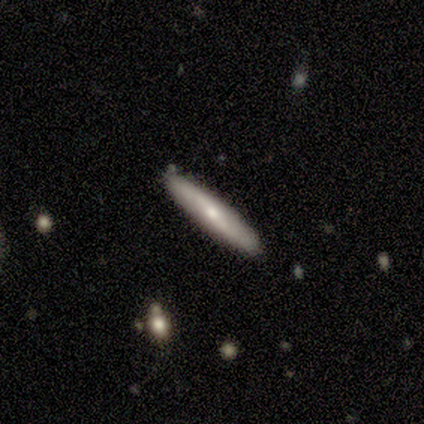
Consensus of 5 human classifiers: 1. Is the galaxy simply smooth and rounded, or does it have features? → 60% smooth, 40% featured or disk, 0% star or artifact.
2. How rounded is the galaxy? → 67% cigar-shaped, 33% in between, 0% round.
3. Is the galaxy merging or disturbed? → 100% none, 0% minor disturbance, 0% major disturbance, 0% merger.